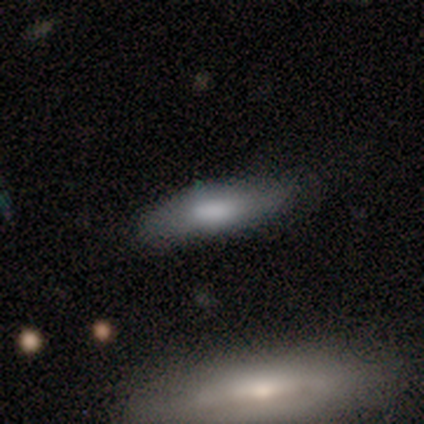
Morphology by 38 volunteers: Smooth or featured?
  - smooth: 71% *
  - featured or disk: 21%
  - star or artifact: 8%
How rounded?
  - cigar-shaped: 67% *
  - in between: 33%
  - round: 0%
Merging?
  - none: 71% *
  - minor disturbance: 23%
  - merger: 6%
  - major disturbance: 0%